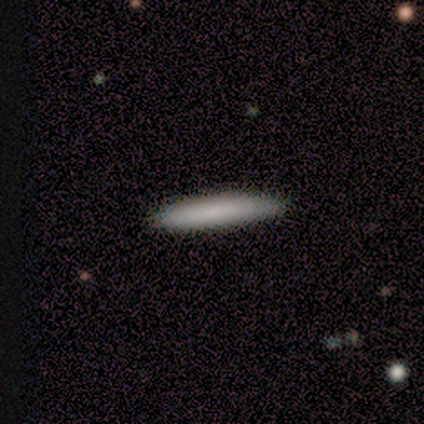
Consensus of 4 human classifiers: Morphology: type=smooth (75%); roundness=cigar-shaped (100%); merging=none (75%).